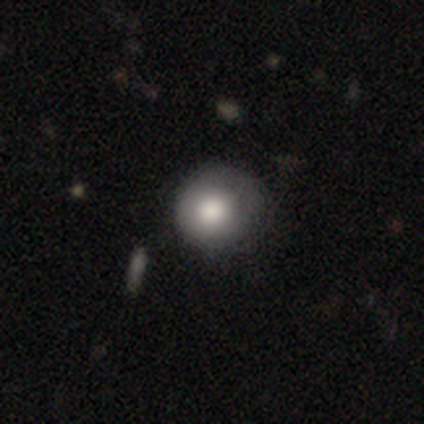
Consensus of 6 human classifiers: This is likely a smooth galaxy (67%). How rounded: clearly round (100%). Merging: possibly none (50%, tied with minor disturbance).